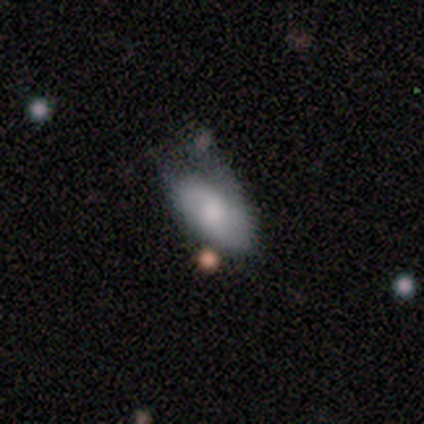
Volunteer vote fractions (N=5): Q: Smooth or featured?
A: smooth (80%); runner-up: featured or disk (20%)
Q: How rounded?
A: in between (100%)
Q: Merging?
A: minor disturbance (40%); tied with: major disturbance (40%)